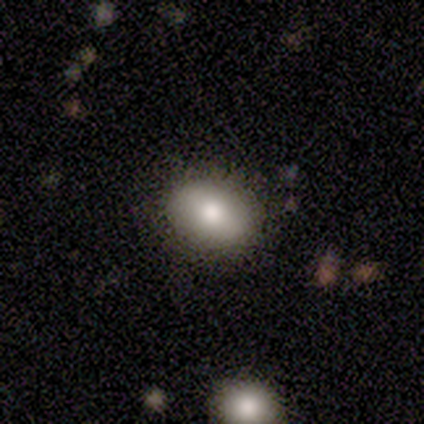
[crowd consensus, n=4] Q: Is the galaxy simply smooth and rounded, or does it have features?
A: smooth — 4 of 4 (100%).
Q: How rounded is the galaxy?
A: round — 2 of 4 (50%, tied with in between).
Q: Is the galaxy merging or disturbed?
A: none — 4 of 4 (100%).